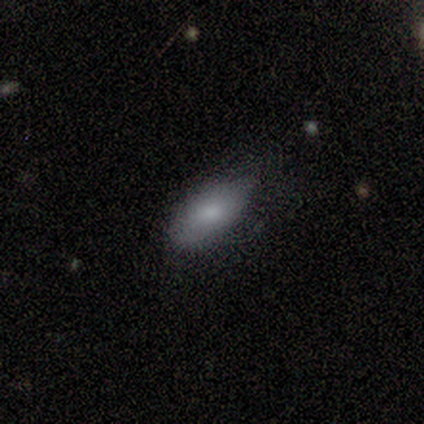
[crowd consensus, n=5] Q: Smooth or featured?
A: smooth (80%); runner-up: star or artifact (20%)
Q: How rounded?
A: in between (100%)
Q: Merging?
A: minor disturbance (75%); runner-up: none (25%)